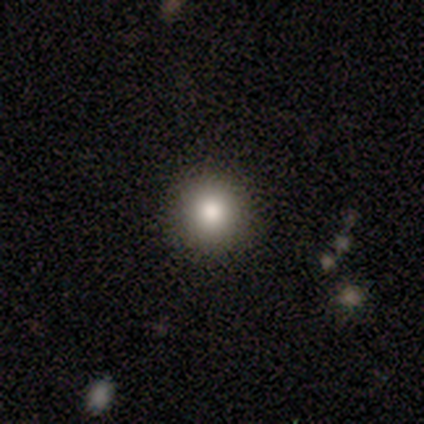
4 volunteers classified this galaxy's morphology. Q: Smooth or featured?
A: smooth (100%)
Q: How rounded?
A: round (100%)
Q: Merging?
A: none (100%)